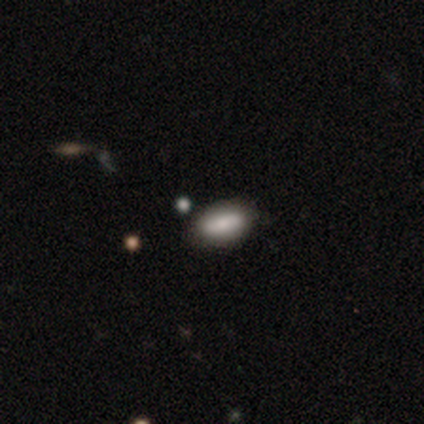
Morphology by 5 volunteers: type=smooth (80%); roundness=in between (100%); merging=none (100%).